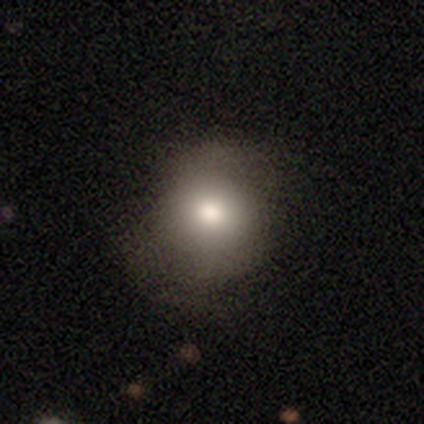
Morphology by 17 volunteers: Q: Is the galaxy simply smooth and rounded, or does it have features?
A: smooth — 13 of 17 (76%).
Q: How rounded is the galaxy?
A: round — 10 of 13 (77%).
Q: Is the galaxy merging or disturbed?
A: none — 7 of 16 (44%).